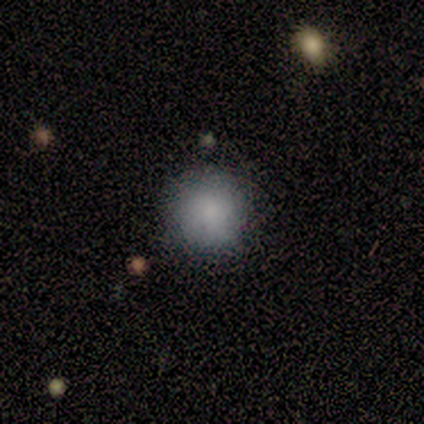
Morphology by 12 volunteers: smooth 100%, featured or disk 0%, star or artifact 0%. Down the decision tree: how rounded — round (100%); merging — none (100%).